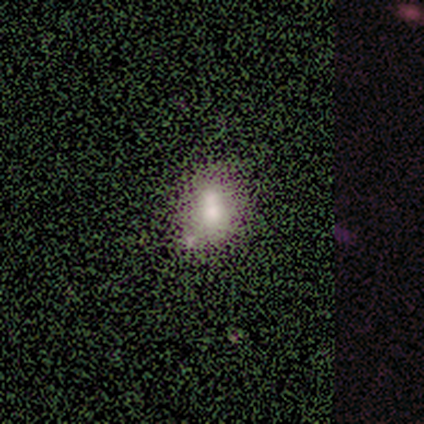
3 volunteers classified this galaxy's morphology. This is likely a smooth galaxy (67%). How rounded: clearly in between (100%). Merging: marginally none (33%, tied with minor disturbance and merger).